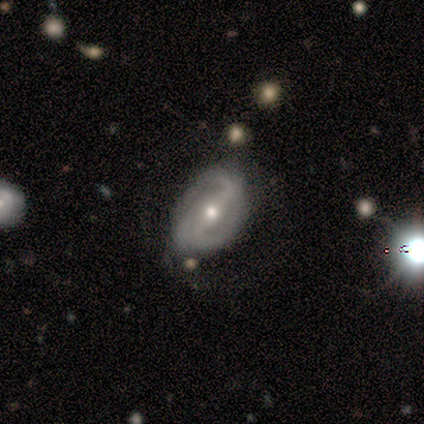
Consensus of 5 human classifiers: This is clearly a featured or disk galaxy (100%). It is clearly not viewed edge-on (100%). Bar: clearly strong (80%). Spiral arm pattern: clearly yes (80%). Spiral arm count: possibly 2 (50%). Spiral winding: possibly tight (50%). Central bulge: clearly moderate (80%). Merging: likely minor disturbance (60%).